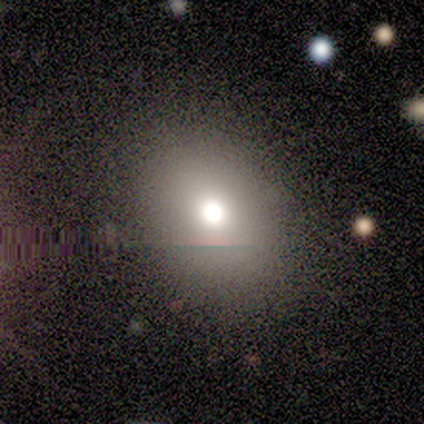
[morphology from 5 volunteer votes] smooth_or_featured: smooth (p=0.60) [alt: featured or disk p=0.20]
how_rounded: in between (p=0.67) [alt: round p=0.33]
merging: none (p=1.00)